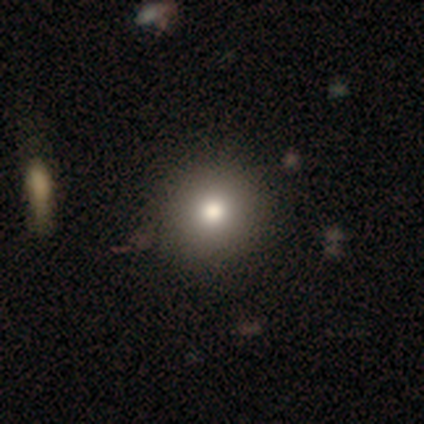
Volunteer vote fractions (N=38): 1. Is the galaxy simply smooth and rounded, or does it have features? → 74% smooth, 18% star or artifact, 8% featured or disk.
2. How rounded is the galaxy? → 93% round, 4% in between, 4% cigar-shaped.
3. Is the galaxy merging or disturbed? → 81% none, 13% minor disturbance, 0% major disturbance, 0% merger.